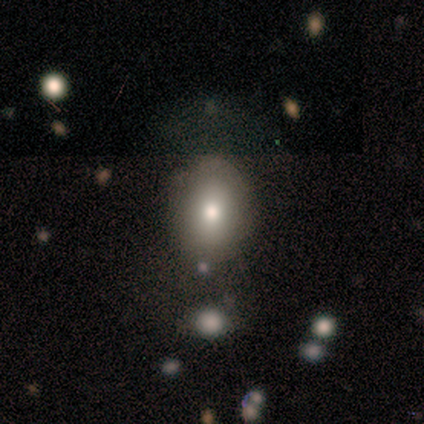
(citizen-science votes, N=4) Smooth or featured?
  - smooth: 75% *
  - featured or disk: 25%
  - star or artifact: 0%
How rounded?
  - in between: 67% *
  - round: 33%
  - cigar-shaped: 0%
Merging?
  - none: 50% *
  - minor disturbance: 25%
  - major disturbance: 25%
  - merger: 0%